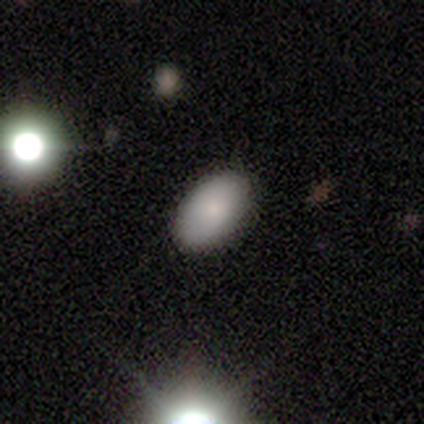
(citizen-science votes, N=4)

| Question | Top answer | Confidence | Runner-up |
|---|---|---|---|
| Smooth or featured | smooth | 75% | star or artifact (25%) |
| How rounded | in between | 100% | — |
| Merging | none | 67% | major disturbance (33%) |